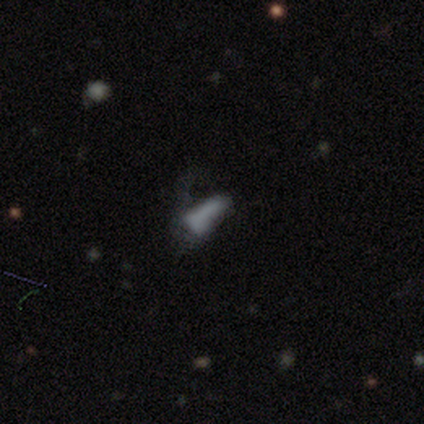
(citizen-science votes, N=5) A smooth galaxy with no disk features (80%) that is in between round and cigar-shaped (50%, tied with cigar-shaped). Merging: none (50%, tied with major disturbance).